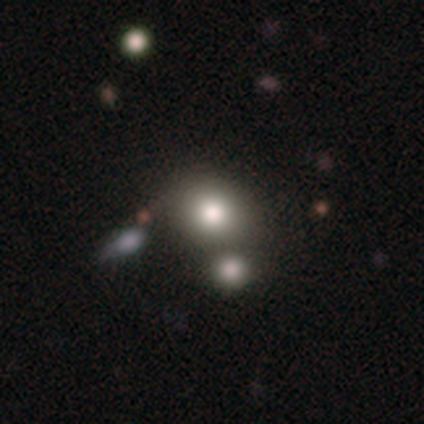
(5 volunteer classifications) A smooth galaxy with no disk features (80%) that is round (100%). Merging: none (60%).